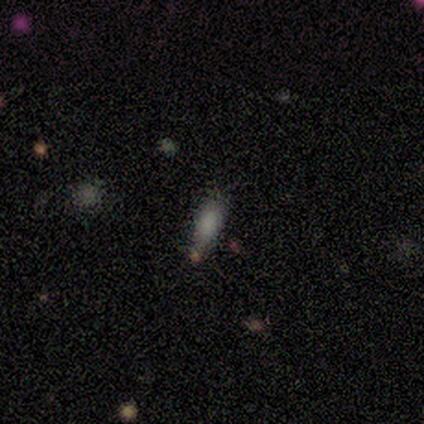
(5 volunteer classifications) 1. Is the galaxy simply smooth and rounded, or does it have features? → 80% smooth, 20% star or artifact, 0% featured or disk.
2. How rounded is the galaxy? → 75% cigar-shaped, 25% in between, 0% round.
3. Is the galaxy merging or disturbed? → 75% none, 25% merger, 0% minor disturbance, 0% major disturbance.